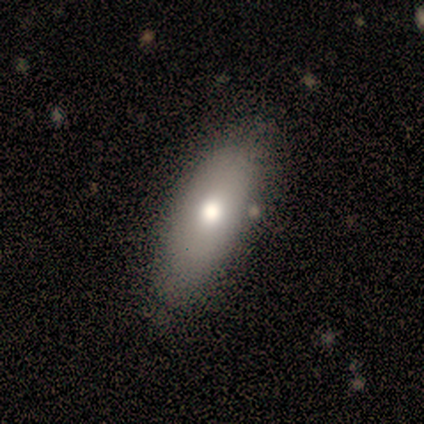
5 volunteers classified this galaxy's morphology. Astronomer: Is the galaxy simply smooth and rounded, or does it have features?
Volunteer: smooth — 80%.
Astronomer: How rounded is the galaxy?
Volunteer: in between — 100%.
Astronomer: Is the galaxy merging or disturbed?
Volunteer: none — 100%.